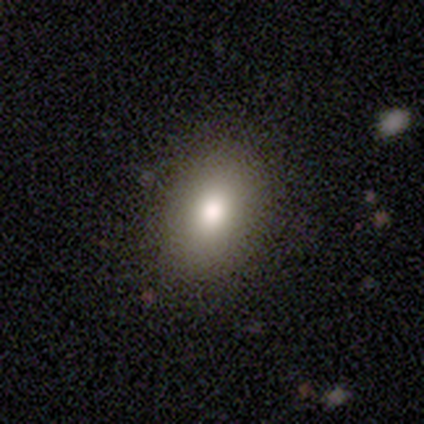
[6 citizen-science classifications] smooth-or-featured: smooth: 100% | featured or disk: 0% | star or artifact: 0%
  how-rounded: in between: 67% | round: 33% | cigar-shaped: 0%
  merging: none: 100% | minor disturbance: 0% | major disturbance: 0% | merger: 0%